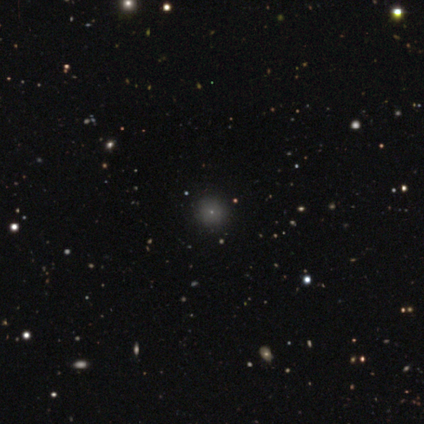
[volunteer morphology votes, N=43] Smooth or featured: smooth — 72% (star or artifact — 21%)
How rounded: round — 97% (in between — 3%)
Merging: none — 94% (minor disturbance — 6%)